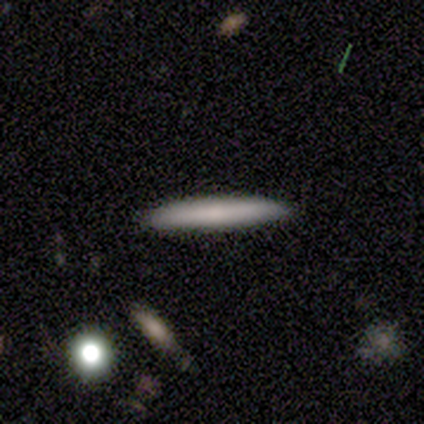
Smooth or featured? smooth (60%)
How rounded? cigar-shaped (67%)
Merging? none (100%)